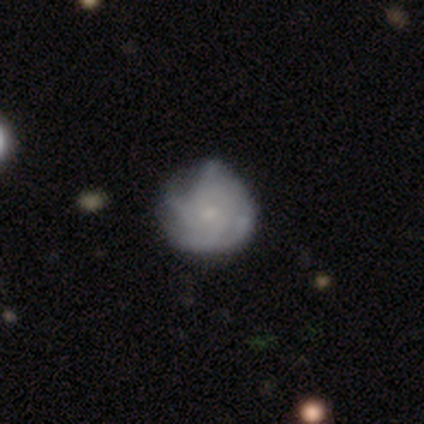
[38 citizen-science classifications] Overall: featured or disk (71%). Edge-on disk: no (100%). Bar: no (93%). Spiral arms: yes (78%). Spiral arm count: can't tell (48%; 4 33%). Spiral winding: medium (48%; tight 43%). Bulge size: small (63%). Merging: none (30%; minor disturbance 27%).